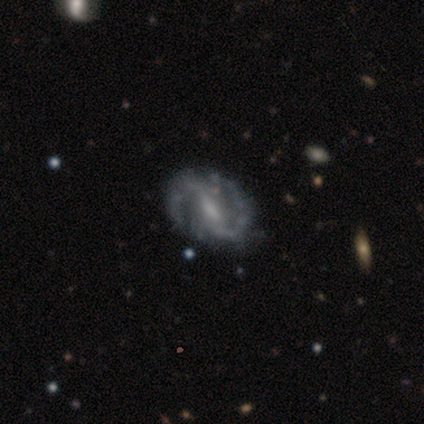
This is clearly a featured or disk galaxy (84%). It is clearly not viewed edge-on (94%). Bar: marginally weak (44%). Spiral arm pattern: clearly yes (97%). Spiral arm count: clearly 2 (94%). Spiral winding: likely medium (61%). Central bulge: marginally small (44%). Merging: possibly none (55%).